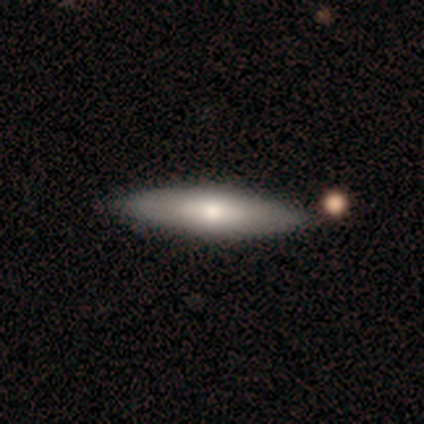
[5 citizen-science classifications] smooth 40% (tied), featured or disk 40% (tied), star or artifact 20%. Down the decision tree: how rounded — in between (50%, tied with cigar-shaped); merging — none (75%).